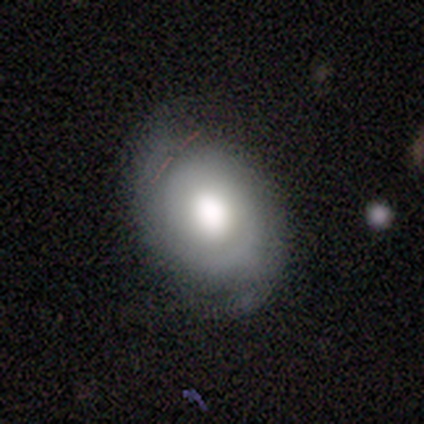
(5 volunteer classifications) A featured or disk galaxy (80%) with no bar (67%), no spiral arms (67%) and a large central bulge (100%). Merging: minor disturbance (60%).